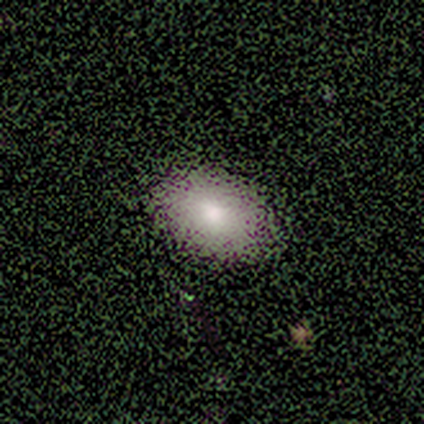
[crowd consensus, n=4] smooth 75%, star or artifact 25%, featured or disk 0%. Down the decision tree: how rounded — in between (67%); merging — none (100%).